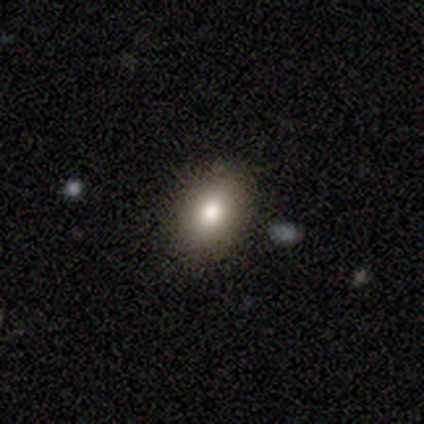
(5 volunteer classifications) This appears to be a smooth galaxy with no disk features (60%) that is in between round and cigar-shaped (100%). Merging: none (75%).